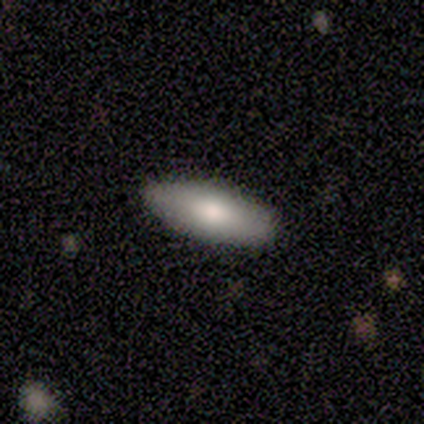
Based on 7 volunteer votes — smooth 71%, featured or disk 29%, star or artifact 0%. Down the decision tree: how rounded — in between (100%); merging — none (100%).